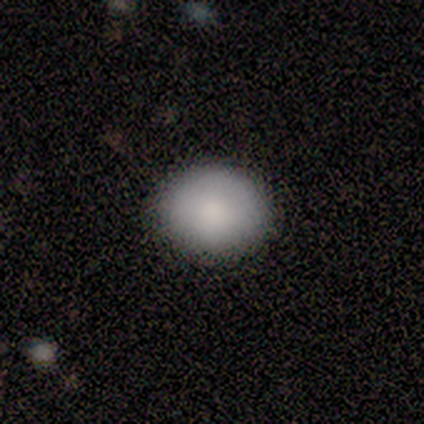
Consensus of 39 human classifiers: Volunteers were most divided on "how rounded": round: 54%, in between: 46%, cigar-shaped: 0%. More confident: smooth or featured — smooth (95%); merging — none (78%).